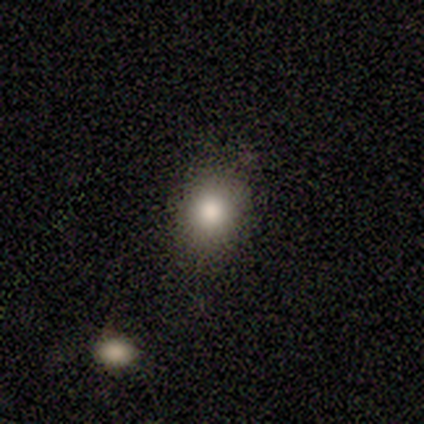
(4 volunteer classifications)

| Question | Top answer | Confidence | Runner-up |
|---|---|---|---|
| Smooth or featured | smooth | 100% | — |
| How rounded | in between | 75% | round (25%) |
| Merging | none | 100% | — |